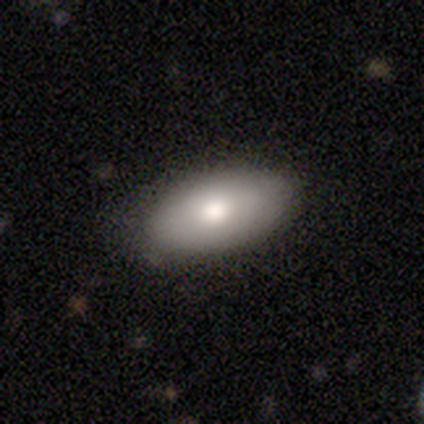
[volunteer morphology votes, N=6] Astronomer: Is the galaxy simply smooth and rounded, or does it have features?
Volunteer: smooth — 67%.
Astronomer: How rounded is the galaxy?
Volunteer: in between — 100%.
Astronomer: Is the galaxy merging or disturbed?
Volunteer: none — 83%.